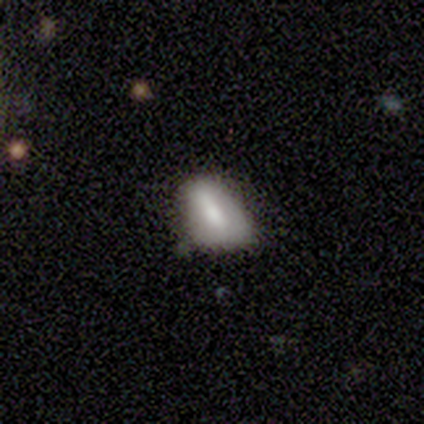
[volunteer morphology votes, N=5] A smooth galaxy with no disk features (40%, tied with featured or disk) that is in between round and cigar-shaped (100%).

Vote fractions:
- Smooth or featured? smooth: 40% (tied) / featured or disk: 40% (tied) / star or artifact: 20%
- How rounded? in between: 100% / round: 0% / cigar-shaped: 0%
- Merging? none: 75% / minor disturbance: 25% / major disturbance: 0% / merger: 0%